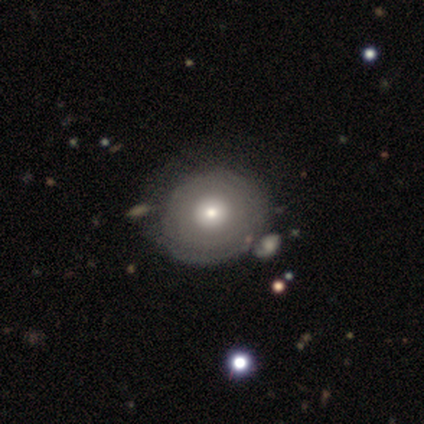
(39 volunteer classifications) Volunteers were most divided on "smooth or featured": featured or disk: 62%, smooth: 38%, star or artifact: 0%. More confident: bar — no (100%); edge-on disk — no (96%); spiral arms — no (70%); merging — none (59%); bulge size — moderate (52%).